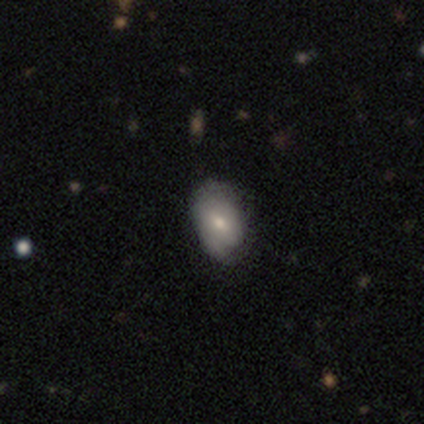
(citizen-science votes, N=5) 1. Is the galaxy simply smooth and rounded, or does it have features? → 80% smooth, 20% featured or disk, 0% star or artifact.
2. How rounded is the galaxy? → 100% in between, 0% round, 0% cigar-shaped.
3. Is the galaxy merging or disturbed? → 80% none, 20% minor disturbance, 0% major disturbance, 0% merger.